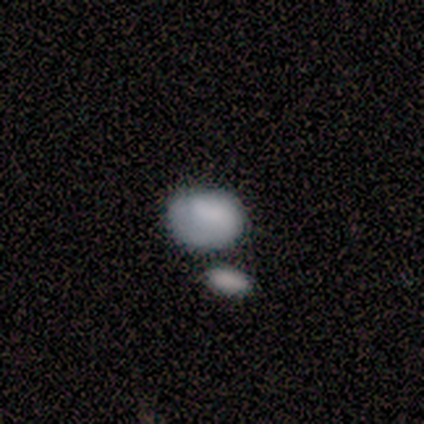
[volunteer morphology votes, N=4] Volunteers were most divided on "merging": none: 75%, major disturbance: 25%, minor disturbance: 0%, merger: 0%. More confident: smooth or featured — smooth (100%); how rounded — in between (100%).